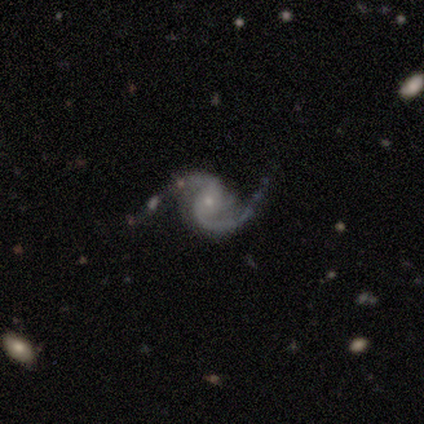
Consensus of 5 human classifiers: Smooth or featured? 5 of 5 (100%) said featured or disk. Edge-on disk? 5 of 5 (100%) said no. Bar? 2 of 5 (40%, tied with no) said weak. Spiral arms? 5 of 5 (100%) said yes. Spiral winding? 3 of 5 (60%) said medium. Spiral arm count? 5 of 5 (100%) said 2. Bulge size? 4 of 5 (80%) said small. Merging? 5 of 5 (100%) said none.